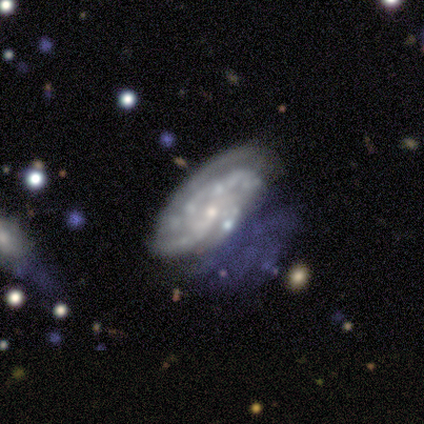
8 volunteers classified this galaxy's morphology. Smooth or featured? featured or disk (100%)
Edge-on disk? no (100%)
Bar? no (75%)
Spiral arms? yes (88%)
Spiral winding? tight (86%)
Spiral arm count? can't tell (57%)
Bulge size? small (75%)
Merging? none (62%)